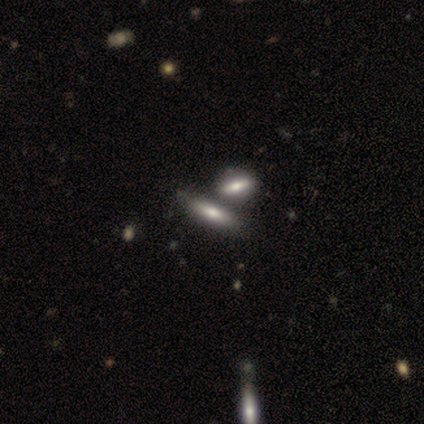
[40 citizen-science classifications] Smooth or featured: smooth — 70% (featured or disk — 28%)
How rounded: cigar-shaped — 64% (in between — 36%)
Merging: merger — 56% (none — 36%)